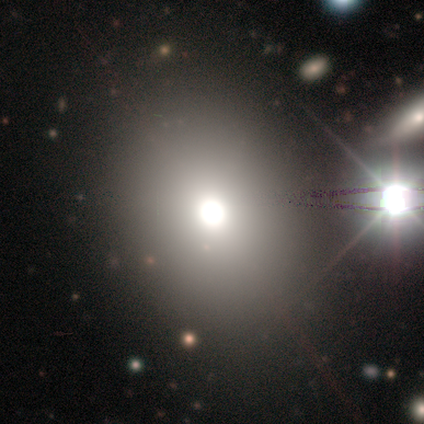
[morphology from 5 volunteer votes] Volunteers were most divided on "smooth or featured": smooth: 60%, star or artifact: 40%, featured or disk: 0%. More confident: how rounded — round (100%); merging — none (100%).